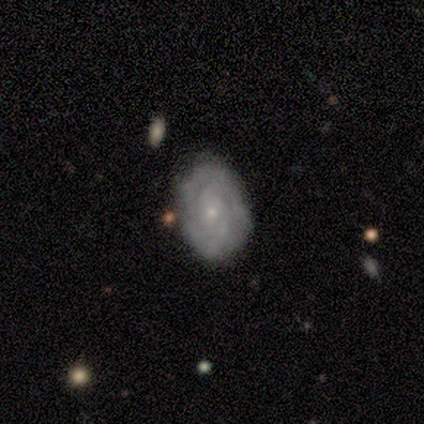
Smooth or featured: featured or disk — 80% (smooth — 20%)
Edge-on disk: no — 100%
Bar: no — 75% (weak — 25%)
Spiral arms: yes — 100%
Spiral winding: medium — 50% (tight — 25%)
Spiral arm count: 2 — 25% (tied with 3 — 25%; 4 — 25%; can't tell — 25%)
Bulge size: small — 100%
Merging: none — 80% (minor disturbance — 20%)